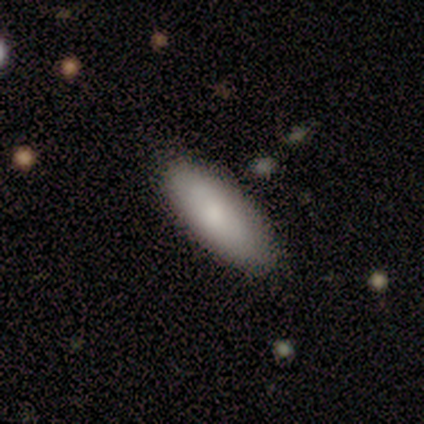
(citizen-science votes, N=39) Q: Smooth or featured?
A: smooth (74%); runner-up: featured or disk (26%)
Q: How rounded?
A: in between (79%); runner-up: cigar-shaped (21%)
Q: Merging?
A: none (51%); runner-up: minor disturbance (8%)